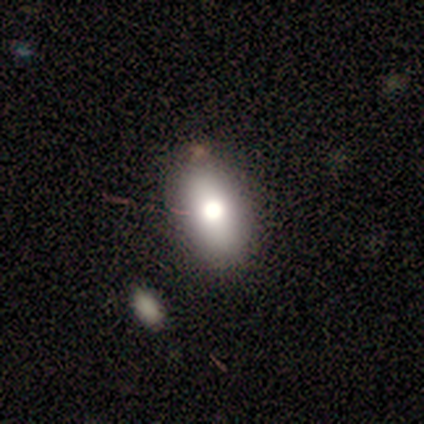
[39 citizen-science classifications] Smooth or featured? smooth (67%)
How rounded? in between (81%)
Merging? none (74%)